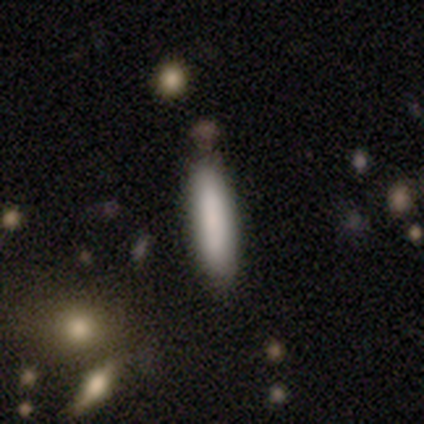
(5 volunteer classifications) A smooth galaxy with no disk features (100%) that is cigar-shaped (100%). Merging: none (80%).